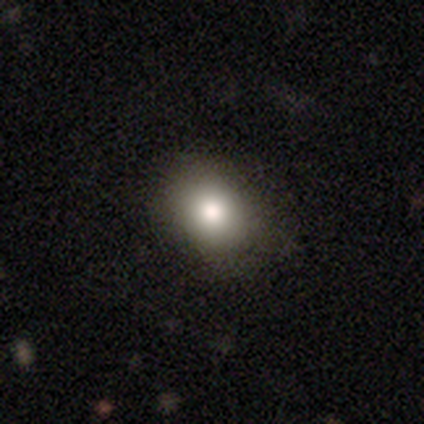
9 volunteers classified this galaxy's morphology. A smooth galaxy with no disk features (89%) that is in between round and cigar-shaped (75%). Merging: none (50%, tied with minor disturbance).